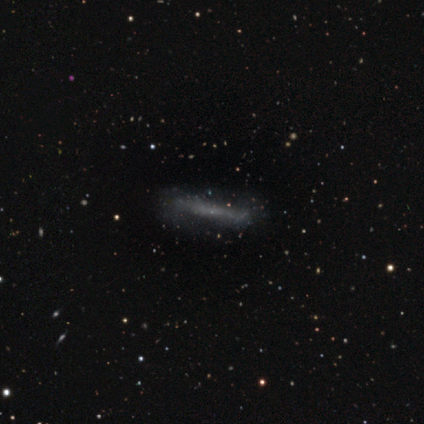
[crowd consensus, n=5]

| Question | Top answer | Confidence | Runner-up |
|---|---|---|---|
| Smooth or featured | featured or disk | 60% | smooth (20%) |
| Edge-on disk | yes | 67% | no (33%) |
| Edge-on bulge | none | 100% | — |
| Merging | none | 75% | minor disturbance (25%) |